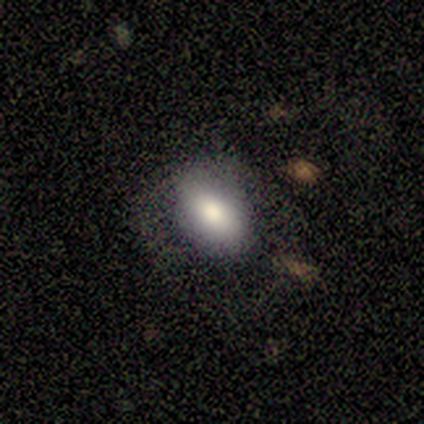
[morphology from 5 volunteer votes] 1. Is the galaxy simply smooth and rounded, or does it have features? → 100% smooth, 0% featured or disk, 0% star or artifact.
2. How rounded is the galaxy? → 80% in between, 20% round, 0% cigar-shaped.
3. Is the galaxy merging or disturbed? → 60% none, 40% major disturbance, 0% minor disturbance, 0% merger.